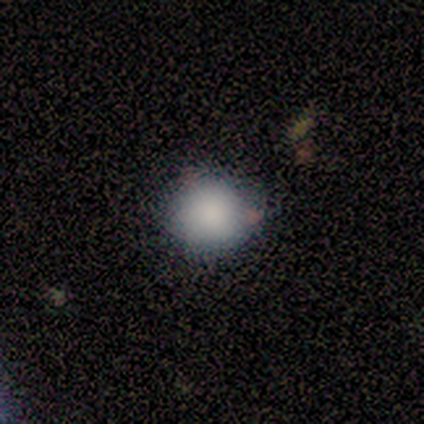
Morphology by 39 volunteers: Smooth or featured? smooth (85%)
How rounded? round (94%)
Merging? none (84%)